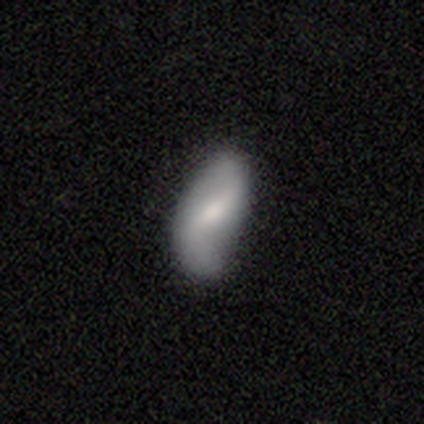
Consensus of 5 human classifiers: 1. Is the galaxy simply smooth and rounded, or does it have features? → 80% featured or disk, 20% smooth, 0% star or artifact.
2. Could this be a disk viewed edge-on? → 100% no, 0% yes.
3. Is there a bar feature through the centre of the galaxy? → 50% strong, 25% weak, 25% no.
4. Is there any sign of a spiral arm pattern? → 75% yes, 25% no.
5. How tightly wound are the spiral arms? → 100% loose, 0% tight, 0% medium.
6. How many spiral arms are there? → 100% 2, 0% 1, 0% 3, 0% 4, 0% more than 4, 0% can't tell.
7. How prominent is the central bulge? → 50% small, 25% large, 25% moderate, 0% dominant, 0% none.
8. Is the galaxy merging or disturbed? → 40% none (tied), 40% minor disturbance (tied), 20% merger, 0% major disturbance.